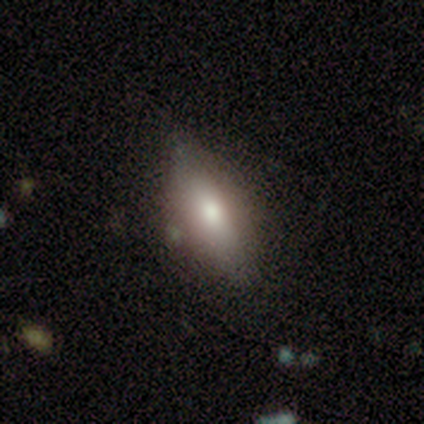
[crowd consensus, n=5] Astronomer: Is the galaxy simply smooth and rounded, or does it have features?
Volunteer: smooth — 60% (runner-up: featured or disk, 40%).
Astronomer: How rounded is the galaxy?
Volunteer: in between — 67%.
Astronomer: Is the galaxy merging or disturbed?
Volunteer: none — 100%.